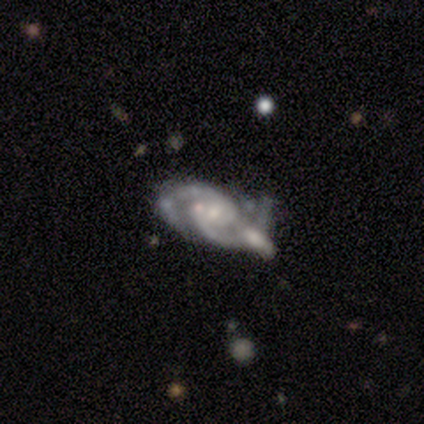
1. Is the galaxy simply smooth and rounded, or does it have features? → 83% featured or disk, 17% star or artifact, 0% smooth.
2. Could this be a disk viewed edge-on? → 100% no, 0% yes.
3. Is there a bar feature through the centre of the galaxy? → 100% no, 0% strong, 0% weak.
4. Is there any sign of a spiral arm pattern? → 100% yes, 0% no.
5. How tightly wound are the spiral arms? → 100% medium, 0% tight, 0% loose.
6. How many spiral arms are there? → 100% 2, 0% 1, 0% 3, 0% 4, 0% more than 4, 0% can't tell.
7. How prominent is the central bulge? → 80% small, 20% moderate, 0% dominant, 0% large, 0% none.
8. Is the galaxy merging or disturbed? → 80% none, 20% merger, 0% minor disturbance, 0% major disturbance.